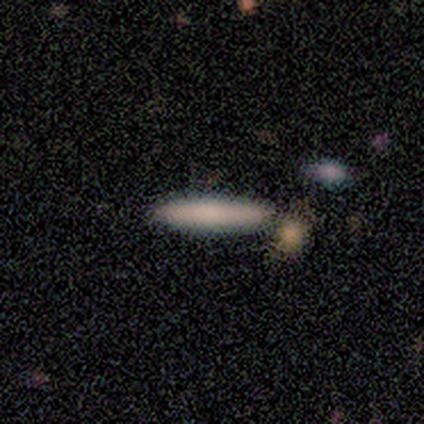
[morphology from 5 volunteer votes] Overall: smooth (100%). How rounded: cigar-shaped (100%). Merging: none (100%).